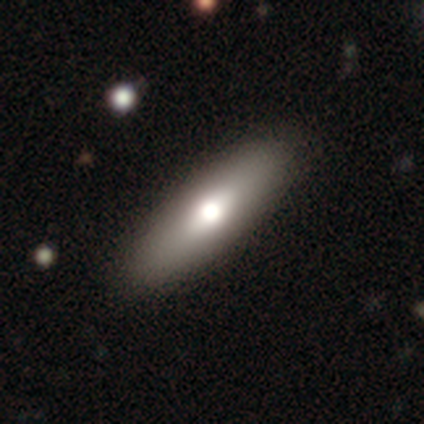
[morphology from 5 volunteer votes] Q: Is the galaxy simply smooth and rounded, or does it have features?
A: smooth — 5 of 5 (100%).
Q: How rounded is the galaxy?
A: in between — 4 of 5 (80%).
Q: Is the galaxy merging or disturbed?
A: none — 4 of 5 (80%).